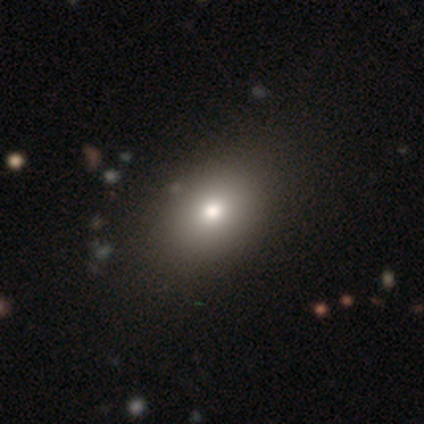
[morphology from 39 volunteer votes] Smooth or featured?
  - smooth: 82% *
  - featured or disk: 13%
  - star or artifact: 5%
How rounded?
  - in between: 69% *
  - round: 31%
  - cigar-shaped: 0%
Merging?
  - none: 70% *
  - minor disturbance: 5%
  - major disturbance: 3%
  - merger: 0%